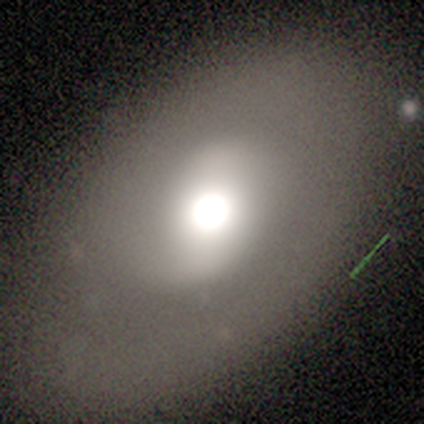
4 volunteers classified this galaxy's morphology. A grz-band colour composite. It shows a smooth galaxy with no disk features (50%, tied with featured or disk) that is round (50%, tied with in between). Merging: none (75%).